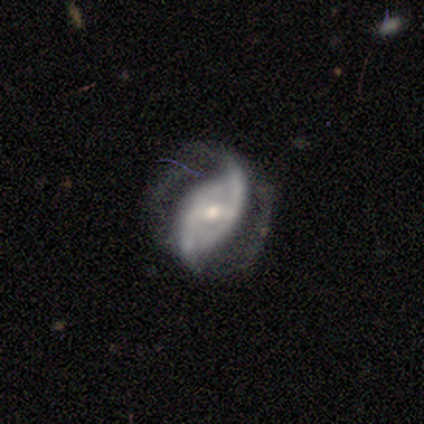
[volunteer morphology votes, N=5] Overall: featured or disk (100%). Edge-on disk: no (100%). Bar: no (60%; strong 20%). Spiral arms: yes (80%). Spiral arm count: 2 (100%). Spiral winding: medium (75%). Bulge size: moderate (60%; large 20%). Merging: none (80%).